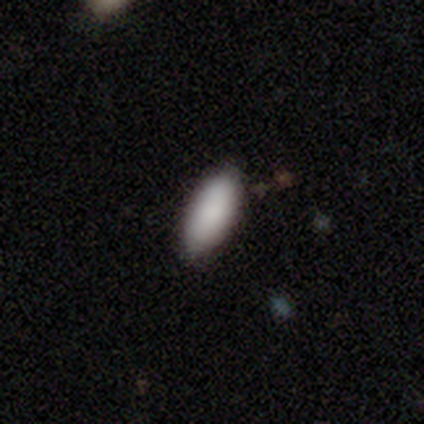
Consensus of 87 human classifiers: Volunteers were most divided on "how rounded": in between: 86%, cigar-shaped: 14%, round: 0%. More confident: smooth or featured — smooth (92%); merging — none (90%).